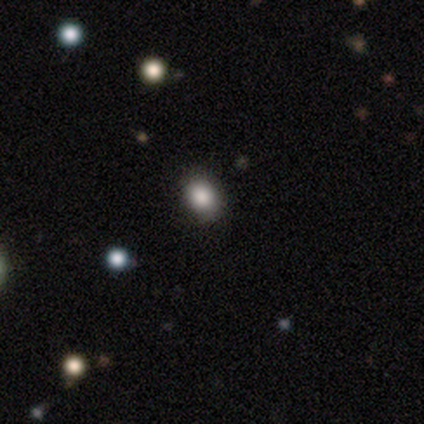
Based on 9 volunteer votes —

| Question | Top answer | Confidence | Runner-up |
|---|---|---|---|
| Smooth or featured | smooth | 78% | featured or disk (11%) |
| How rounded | in between | 86% | round (14%) |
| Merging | none | 75% | minor disturbance (25%) |